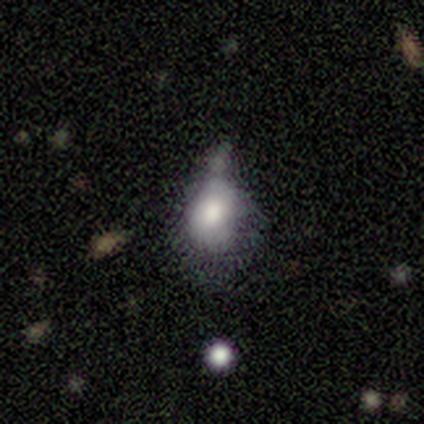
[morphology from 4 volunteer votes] Smooth or featured? 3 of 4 (75%) said smooth. How rounded? 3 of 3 (100%) said in between. Merging? 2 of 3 (67%) said major disturbance.